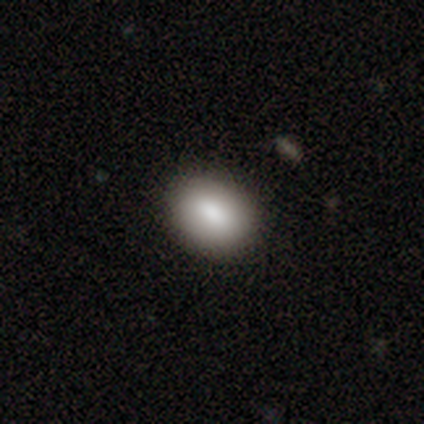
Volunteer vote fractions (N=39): smooth_or_featured: smooth (p=0.87) [alt: featured or disk p=0.10]
how_rounded: in between (p=0.65) [alt: round p=0.29]
merging: none (p=0.92) [alt: minor disturbance p=0.05]